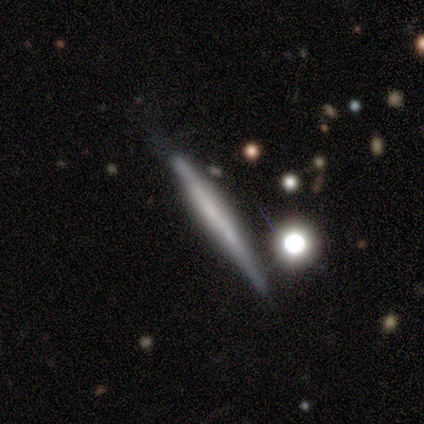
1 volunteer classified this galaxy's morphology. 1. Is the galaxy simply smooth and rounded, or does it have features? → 100% smooth, 0% featured or disk, 0% star or artifact.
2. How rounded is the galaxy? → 100% cigar-shaped, 0% round, 0% in between.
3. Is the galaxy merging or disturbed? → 100% none, 0% minor disturbance, 0% major disturbance, 0% merger.